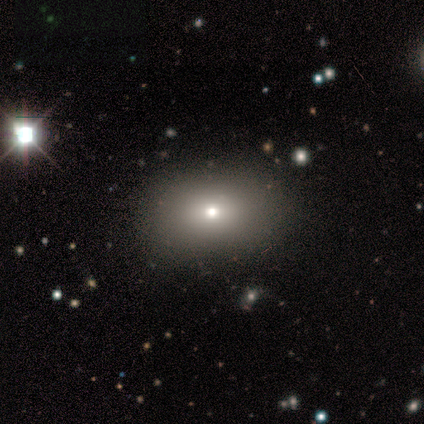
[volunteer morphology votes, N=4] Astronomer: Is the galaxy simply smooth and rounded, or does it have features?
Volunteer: star or artifact — 50%.